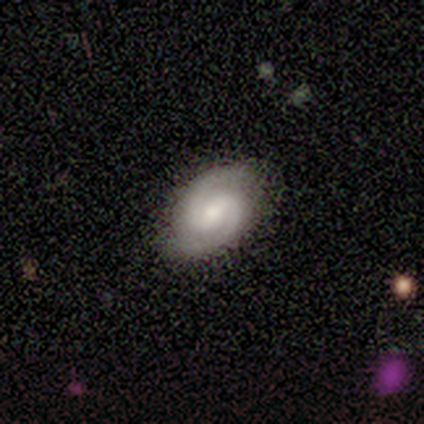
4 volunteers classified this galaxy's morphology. This appears to be a featured or disk galaxy (75%) with a weak bar (67%), 2 (100%) medium (67%) spiral arms (100%) and a small central bulge (67%). Merging: none (100%).